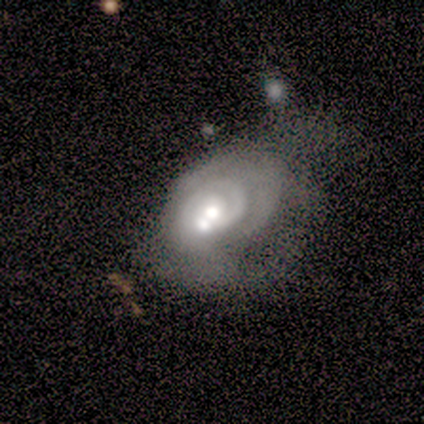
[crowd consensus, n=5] Morphology: type=featured or disk (80%); edge-on=no (100%); bar=no (100%); spiral arms=yes (75%); winding=tight (100%); arm count=2 (67%); bulge=moderate (50%); merging=minor disturbance (40%, tied with merger).